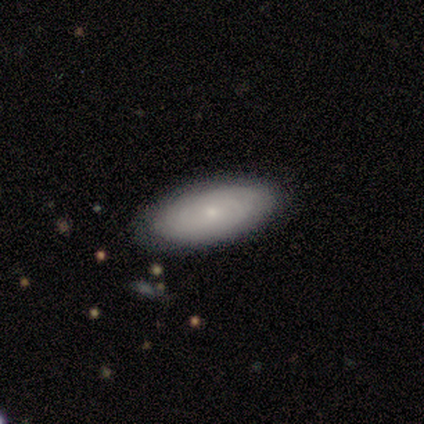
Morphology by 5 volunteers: Q: Smooth or featured?
A: smooth (60%); runner-up: featured or disk (40%)
Q: How rounded?
A: in between (67%); runner-up: round (33%)
Q: Merging?
A: none (100%)